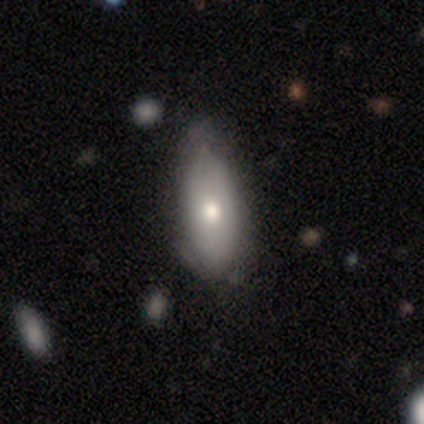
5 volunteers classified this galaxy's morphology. smooth-or-featured: smooth: 80% | featured or disk: 20% | star or artifact: 0%
  how-rounded: in between: 100% | round: 0% | cigar-shaped: 0%
  merging: minor disturbance: 80% | none: 20% | major disturbance: 0% | merger: 0%